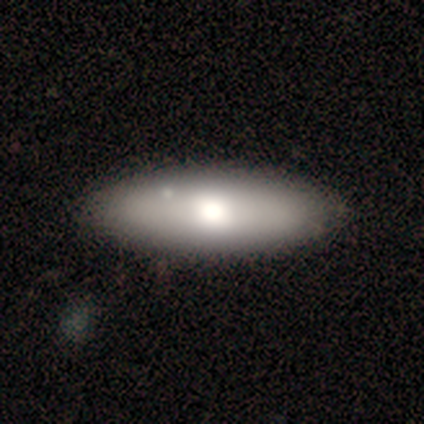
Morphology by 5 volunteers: Smooth or featured: smooth — 100%
How rounded: cigar-shaped — 60% (in between — 40%)
Merging: none — 80% (minor disturbance — 20%)